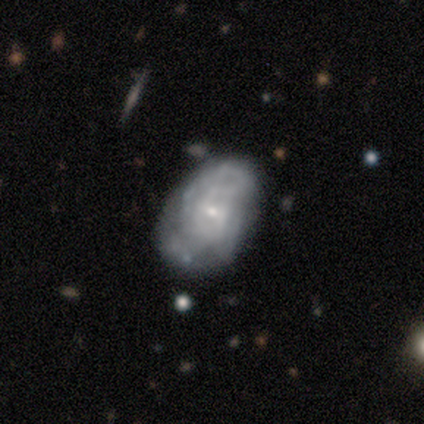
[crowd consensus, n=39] Smooth or featured? 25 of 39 (64%) said featured or disk. Edge-on disk? 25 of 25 (100%) said no. Bar? 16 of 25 (64%) said no. Spiral arms? 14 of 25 (56%) said yes. Spiral winding? 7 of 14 (50%) said tight. Spiral arm count? 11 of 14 (79%) said can't tell. Bulge size? 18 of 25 (72%) said small. Merging? 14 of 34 (41%, tied with minor disturbance) said none.